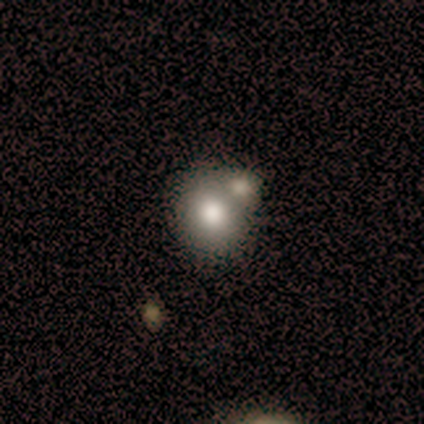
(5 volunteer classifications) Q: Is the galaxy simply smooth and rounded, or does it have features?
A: smooth — 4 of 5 (80%).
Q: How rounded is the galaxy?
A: round — 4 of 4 (100%).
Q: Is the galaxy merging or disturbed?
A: none — 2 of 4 (50%, tied with merger).